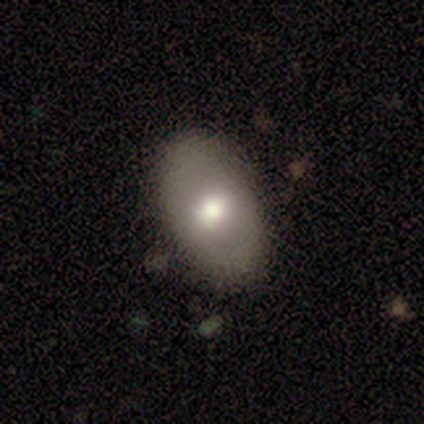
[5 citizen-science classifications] Smooth or featured? 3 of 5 (60%) said featured or disk. Edge-on disk? 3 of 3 (100%) said no. Bar? 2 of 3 (67%) said no. Spiral arms? 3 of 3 (100%) said no. Bulge size? 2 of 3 (67%) said moderate. Merging? 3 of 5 (60%) said minor disturbance.